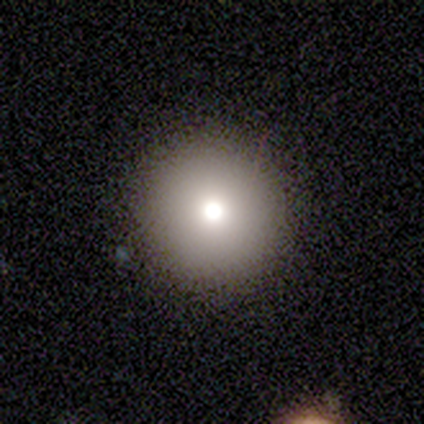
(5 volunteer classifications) Smooth or featured: smooth — 100%
How rounded: round — 100%
Merging: none — 80% (major disturbance — 20%)